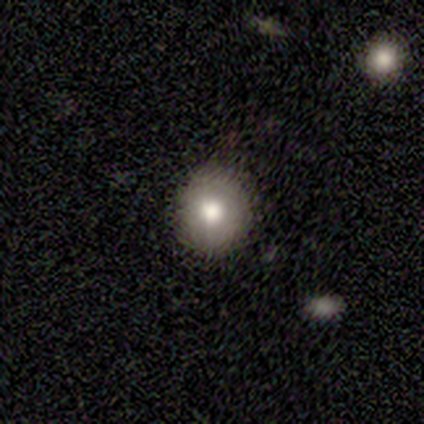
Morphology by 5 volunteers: Overall: smooth (80%). How rounded: round (100%). Merging: none (75%).